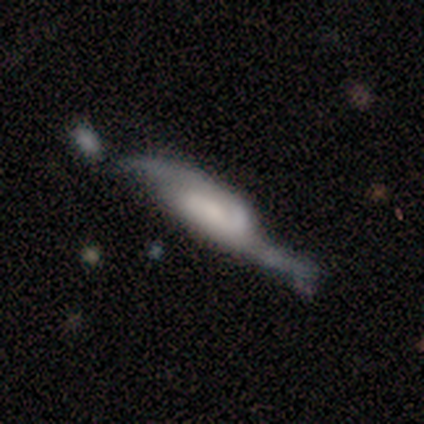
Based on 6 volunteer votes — Smooth or featured? featured or disk (67%)
Edge-on disk? no (75%)
Bar? weak (67%)
Spiral arms? yes (100%)
Spiral winding? loose (67%)
Spiral arm count? 2 (67%)
Bulge size? small (67%)
Merging? none (60%)